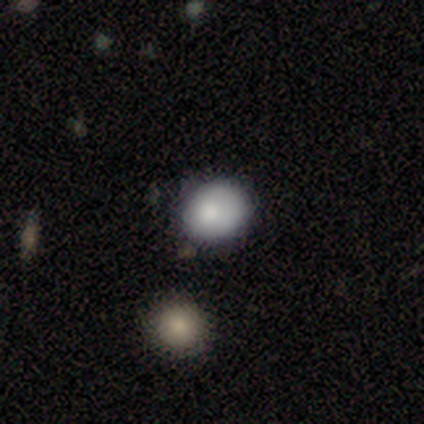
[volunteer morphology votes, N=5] type=smooth (40%, tied with featured or disk); roundness=round (100%); merging=none (75%).